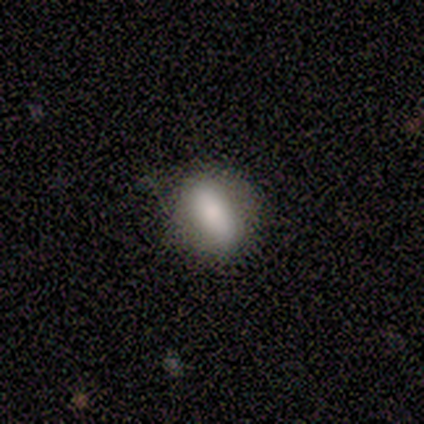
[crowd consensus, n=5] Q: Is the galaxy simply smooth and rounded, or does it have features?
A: smooth — 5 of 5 (100%).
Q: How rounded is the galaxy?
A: in between — 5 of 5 (100%).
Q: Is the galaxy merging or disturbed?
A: none — 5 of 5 (100%).